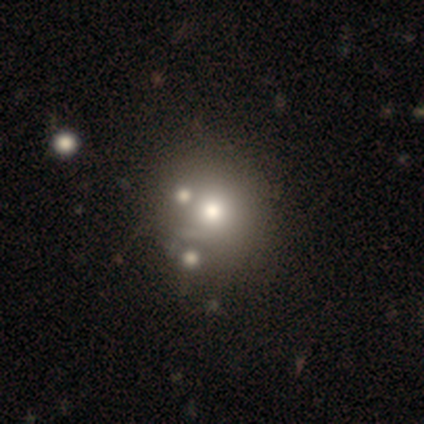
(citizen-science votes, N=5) This appears to be a featured or disk galaxy (60%) with no bar (100%), no spiral arms (100%) and a dominant central bulge (33%, tied with large and none). Merging: none (40%).